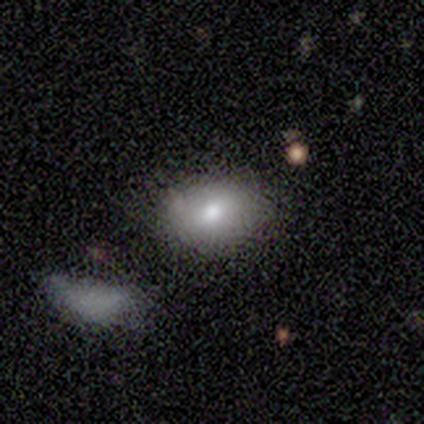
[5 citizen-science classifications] Smooth or featured? smooth (80%)
How rounded? in between (100%)
Merging? none (100%)